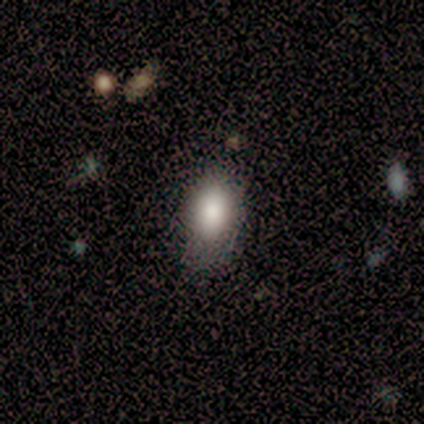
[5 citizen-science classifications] Smooth or featured?
  - smooth: 80% *
  - featured or disk: 20%
  - star or artifact: 0%
How rounded?
  - in between: 100% *
  - round: 0%
  - cigar-shaped: 0%
Merging?
  - none: 60% *
  - minor disturbance: 40%
  - major disturbance: 0%
  - merger: 0%